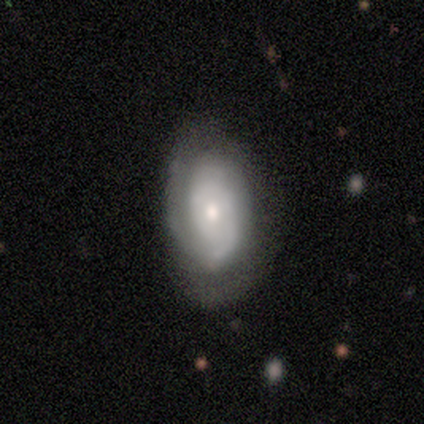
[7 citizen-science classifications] smooth_or_featured: featured or disk (p=0.71) [alt: smooth p=0.14]
disk_edge_on: no (p=0.80) [alt: yes p=0.20]
bar: no (p=0.50) [alt: strong p=0.25]
has_spiral_arms: yes (p=1.00)
spiral_winding: tight (p=0.75) [alt: medium p=0.25]
spiral_arm_count: 1 (p=0.50) [alt: 2 p=0.25]
bulge_size: moderate (p=0.50) [alt: large p=0.25]
merging: none (p=0.67) [alt: major disturbance p=0.33]